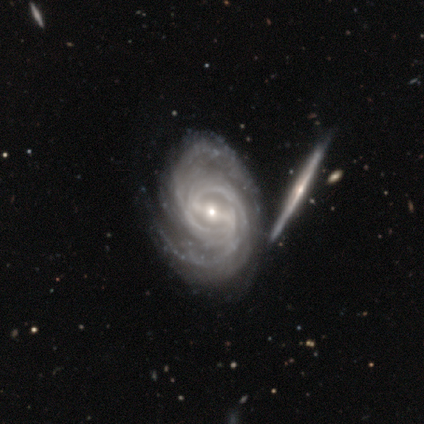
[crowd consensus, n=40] This is clearly a featured or disk galaxy (98%). It is clearly not viewed edge-on (95%). Bar: possibly strong (54%). Spiral arm pattern: clearly yes (100%). Spiral arm count: possibly 2 (51%). Spiral winding: likely tight (76%). Central bulge: likely small (68%). Merging: possibly none (46%).